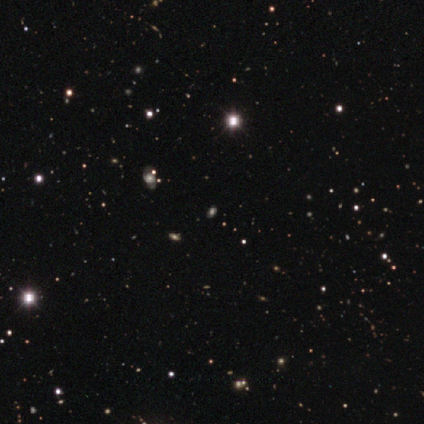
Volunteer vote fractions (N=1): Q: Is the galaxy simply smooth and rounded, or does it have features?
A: star or artifact — 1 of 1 (100%).